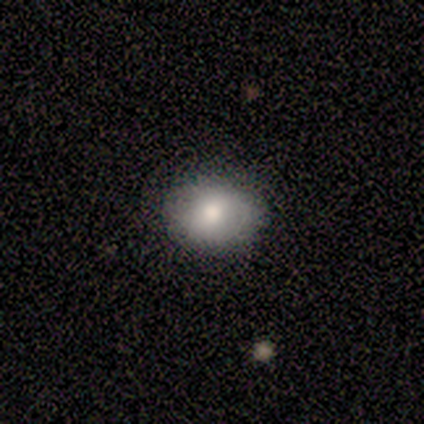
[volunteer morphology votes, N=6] Smooth or featured? smooth (33%, tied with featured or disk and star or artifact)
How rounded? in between (100%)
Merging? none (75%)